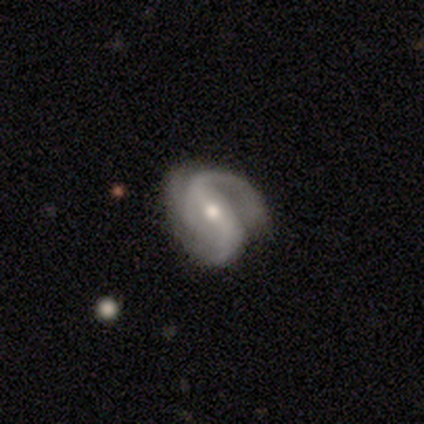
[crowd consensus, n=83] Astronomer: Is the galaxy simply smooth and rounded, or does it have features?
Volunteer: featured or disk — 89%.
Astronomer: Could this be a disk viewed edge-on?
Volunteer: no — 97%.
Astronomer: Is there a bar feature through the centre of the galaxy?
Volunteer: strong — 50% (runner-up: weak, 35%).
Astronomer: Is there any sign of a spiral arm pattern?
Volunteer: yes — 96%.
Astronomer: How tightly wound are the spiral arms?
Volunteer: medium — 57%.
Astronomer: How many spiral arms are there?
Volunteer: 2 — 81%.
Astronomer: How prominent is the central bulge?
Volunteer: moderate — 57% (runner-up: small, 38%).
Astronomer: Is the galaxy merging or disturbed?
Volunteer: none — 61%.